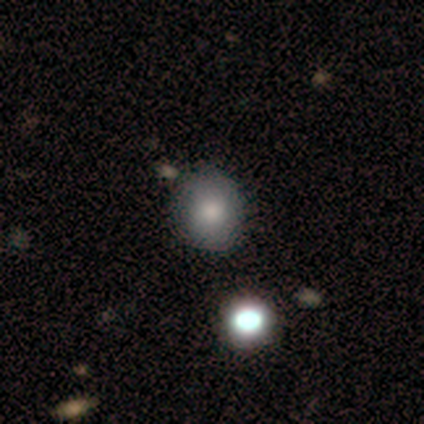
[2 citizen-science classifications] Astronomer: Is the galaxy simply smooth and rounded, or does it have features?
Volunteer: smooth — 100%.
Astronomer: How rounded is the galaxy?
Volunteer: round — 100%.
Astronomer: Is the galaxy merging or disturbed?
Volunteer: none — 50%, tied with major disturbance at 50%.